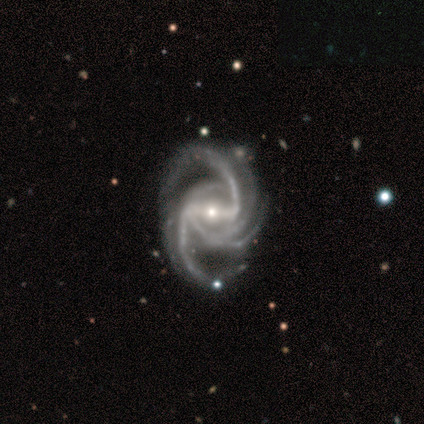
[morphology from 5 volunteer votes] Smooth or featured: featured or disk — 80% (smooth — 20%)
Edge-on disk: no — 100%
Bar: strong — 50% (weak — 25%)
Spiral arms: yes — 100%
Spiral winding: tight — 50% (tied with medium — 50%)
Spiral arm count: 4 — 50% (3 — 25%)
Bulge size: moderate — 50% (tied with small — 50%)
Merging: none — 60% (minor disturbance — 20%)